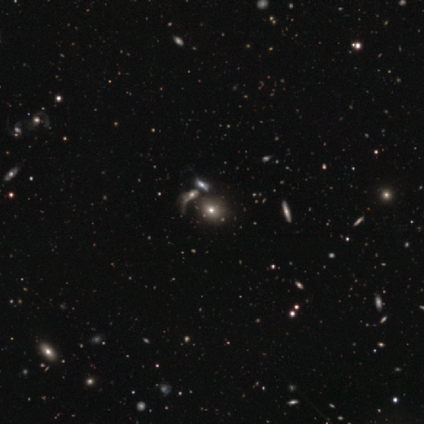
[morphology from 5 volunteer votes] smooth_or_featured: smooth (p=0.60) [alt: featured or disk p=0.40]
how_rounded: in between (p=0.67) [alt: round p=0.33]
merging: merger (p=0.40) [alt: none p=0.20]